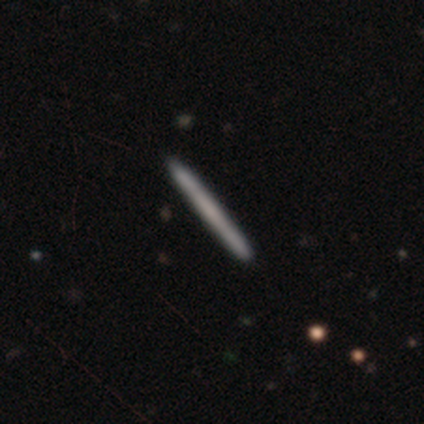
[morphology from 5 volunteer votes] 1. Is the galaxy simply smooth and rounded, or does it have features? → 40% featured or disk (tied), 40% star or artifact (tied), 20% smooth.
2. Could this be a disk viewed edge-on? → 100% yes, 0% no.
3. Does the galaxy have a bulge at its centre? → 100% none, 0% boxy, 0% rounded.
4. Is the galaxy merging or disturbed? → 100% none, 0% minor disturbance, 0% major disturbance, 0% merger.